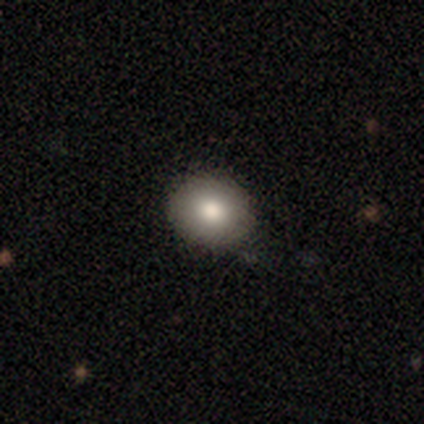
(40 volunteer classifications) Q: Smooth or featured?
A: smooth (78%); runner-up: star or artifact (12%)
Q: How rounded?
A: round (81%); runner-up: in between (19%)
Q: Merging?
A: none (71%); runner-up: minor disturbance (26%)